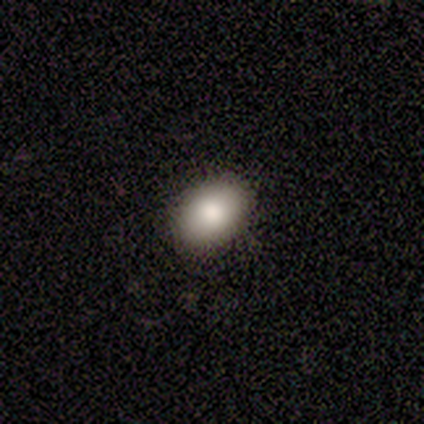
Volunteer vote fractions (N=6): A smooth galaxy with no disk features (83%) that is round (60%). Merging: none (100%).